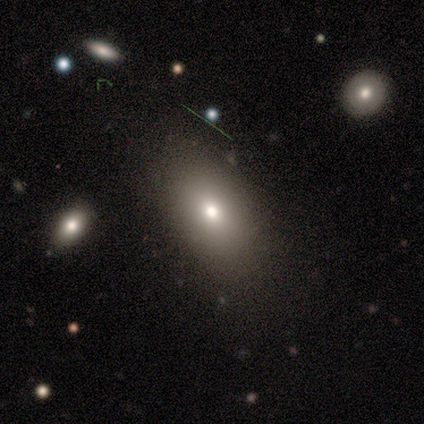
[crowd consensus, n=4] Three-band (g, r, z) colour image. It shows a smooth galaxy with no disk features (75%) that is round (67%). Merging: none (67%).